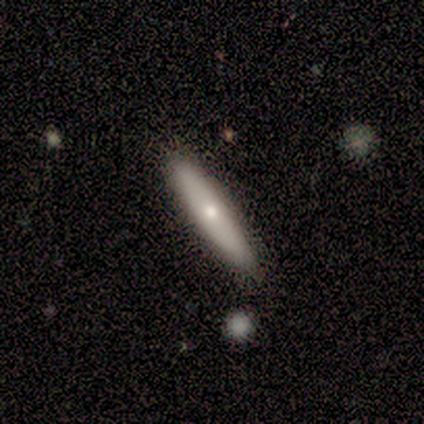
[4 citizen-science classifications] A smooth galaxy with no disk features (75%) that is cigar-shaped (100%). Merging: none (100%).